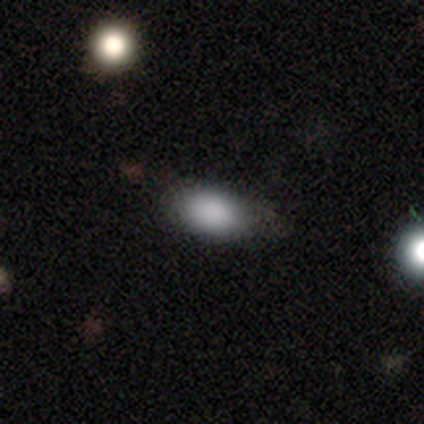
Smooth or featured? smooth (91%)
How rounded? in between (96%)
Merging? none (72%)